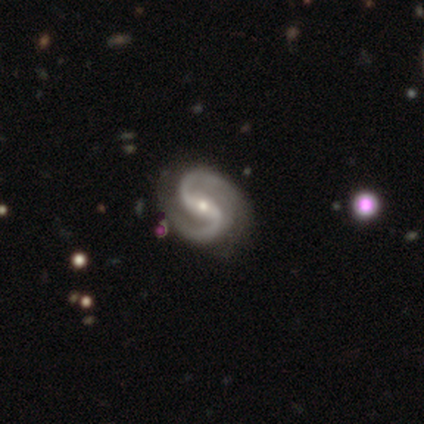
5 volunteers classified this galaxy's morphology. smooth-or-featured: featured or disk: 100% | smooth: 0% | star or artifact: 0%
  disk-edge-on: no: 80% | yes: 20%
    bar: no: 75% | weak: 25% | strong: 0%
    has-spiral-arms: yes: 100% | no: 0%
      spiral-winding: loose: 50% | tight: 25% | medium: 25%
      spiral-arm-count: 2: 100% | 1: 0% | 3: 0% | 4: 0% | more than 4: 0% | can't tell: 0%
    bulge-size: small: 100% | dominant: 0% | large: 0% | moderate: 0% | none: 0%
  merging: none: 80% | minor disturbance: 20% | major disturbance: 0% | merger: 0%